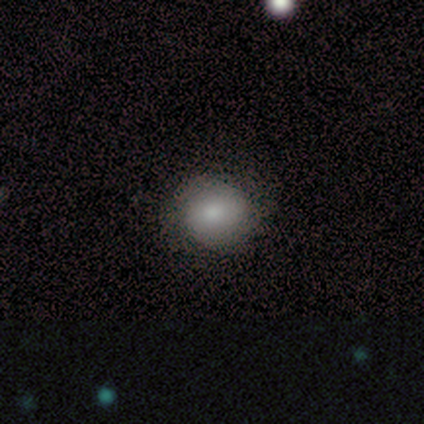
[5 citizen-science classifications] smooth-or-featured: smooth: 80% | featured or disk: 20% | star or artifact: 0%
  how-rounded: round: 50% (tied) | in between: 50% (tied) | cigar-shaped: 0%
  merging: none: 100% | minor disturbance: 0% | major disturbance: 0% | merger: 0%